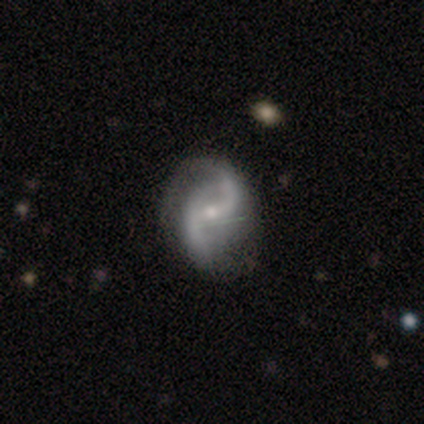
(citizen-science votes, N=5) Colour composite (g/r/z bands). It shows a featured or disk galaxy (60%) with a strong bar (33%, tied with weak and no), 2 (100%) medium (67%) spiral arms (100%) and a small central bulge (100%). Merging: none (60%).